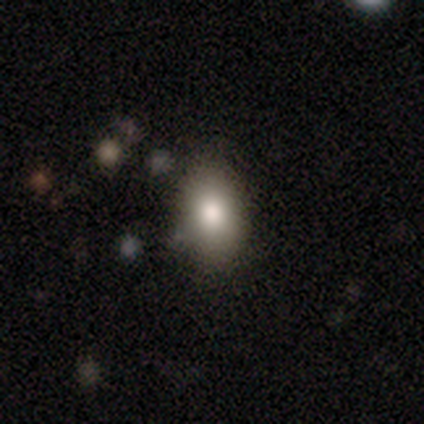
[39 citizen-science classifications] Morphology: type=smooth (69%); roundness=in between (81%); merging=none (73%).